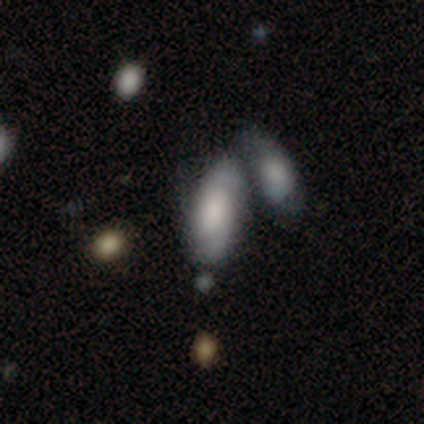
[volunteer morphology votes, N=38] Smooth or featured? smooth (47%, tied with featured or disk)
How rounded? in between (89%)
Merging? merger (58%)